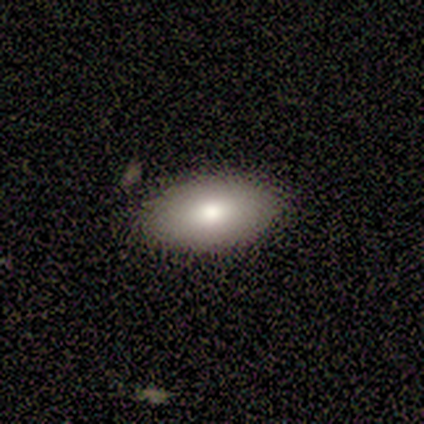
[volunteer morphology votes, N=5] smooth 80%, featured or disk 20%, star or artifact 0%. Down the decision tree: how rounded — in between (100%); merging — none (80%).